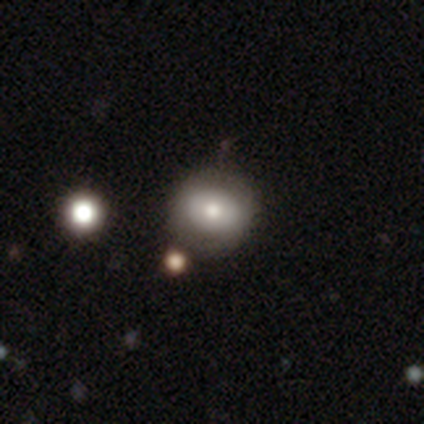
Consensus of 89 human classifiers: Overall: smooth (71%). How rounded: round (68%; in between 32%). Merging: none (74%).